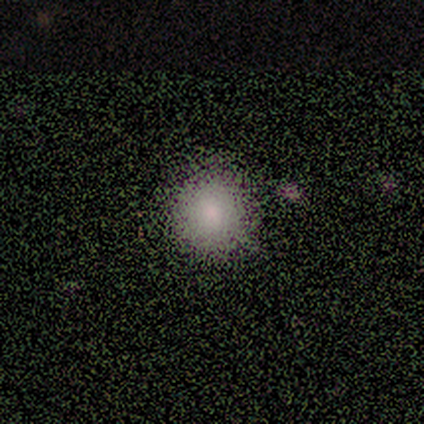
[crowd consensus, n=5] Morphology: type=smooth (80%); roundness=round (75%); merging=none (100%).